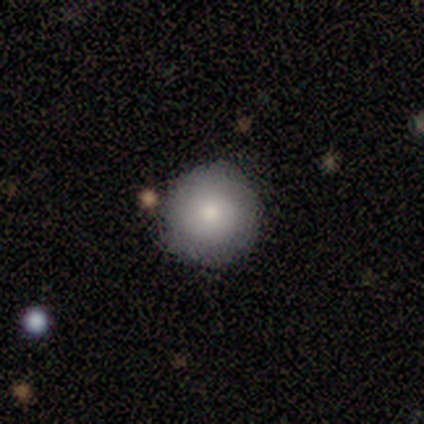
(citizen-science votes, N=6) Smooth or featured?
  - smooth: 100% *
  - featured or disk: 0%
  - star or artifact: 0%
How rounded?
  - round: 83% *
  - in between: 17%
  - cigar-shaped: 0%
Merging?
  - none: 67% *
  - minor disturbance: 33%
  - major disturbance: 0%
  - merger: 0%